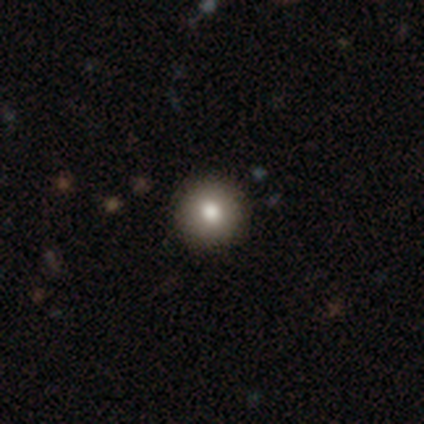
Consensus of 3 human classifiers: smooth 100%, featured or disk 0%, star or artifact 0%. Down the decision tree: how rounded — round (100%); merging — none (100%).